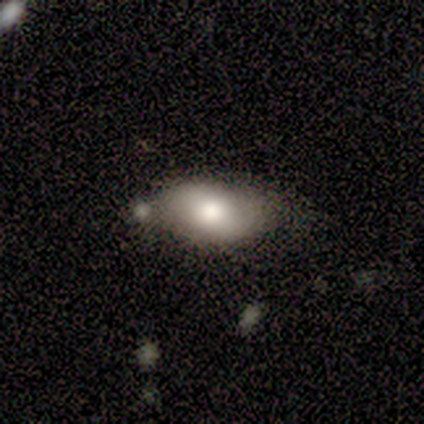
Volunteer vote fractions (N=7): A featured or disk galaxy (57%) with no bar (50%), no spiral arms (100%) and a moderate central bulge (100%).

Vote fractions:
- Smooth or featured? featured or disk: 57% / smooth: 43% / star or artifact: 0%
- Edge-on disk? no: 100% / yes: 0%
- Bar? no: 50% / strong: 25% / weak: 25%
- Spiral arms? no: 100% / yes: 0%
- Bulge size? moderate: 100% / dominant: 0% / large: 0% / small: 0% / none: 0%
- Merging? none: 57% / minor disturbance: 29% / major disturbance: 14% / merger: 0%